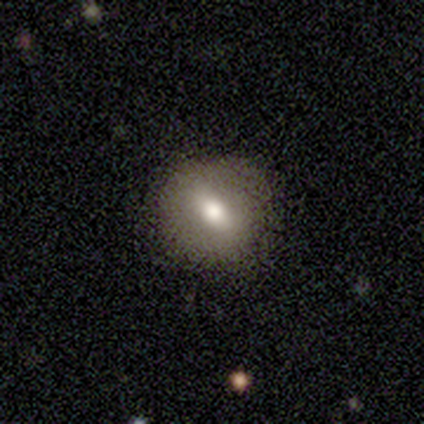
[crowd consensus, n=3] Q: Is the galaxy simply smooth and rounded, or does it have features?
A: smooth — 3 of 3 (100%).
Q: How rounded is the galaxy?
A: round — 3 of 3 (100%).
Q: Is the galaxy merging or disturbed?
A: none — 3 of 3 (100%).